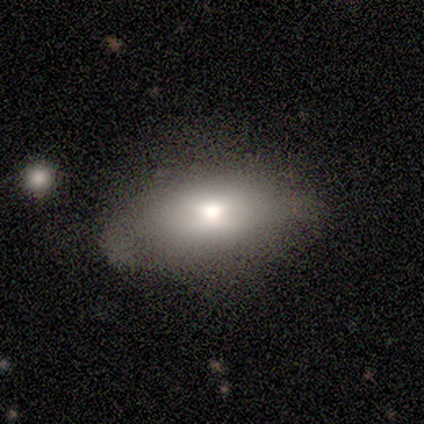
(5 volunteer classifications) A smooth galaxy with no disk features (100%) that is in between round and cigar-shaped (80%).

Vote fractions:
- Smooth or featured? smooth: 100% / featured or disk: 0% / star or artifact: 0%
- How rounded? in between: 80% / cigar-shaped: 20% / round: 0%
- Merging? none: 60% / minor disturbance: 20% / major disturbance: 20% / merger: 0%